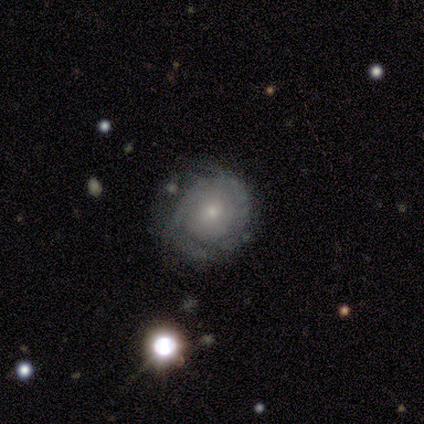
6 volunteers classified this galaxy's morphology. Q: Smooth or featured?
A: featured or disk (67%); runner-up: smooth (33%)
Q: Edge-on disk?
A: no (100%)
Q: Bar?
A: no (100%)
Q: Spiral arms?
A: yes (75%); runner-up: no (25%)
Q: Spiral winding?
A: tight (67%); runner-up: medium (33%)
Q: Spiral arm count?
A: can't tell (100%)
Q: Bulge size?
A: small (100%)
Q: Merging?
A: none (67%); runner-up: minor disturbance (33%)